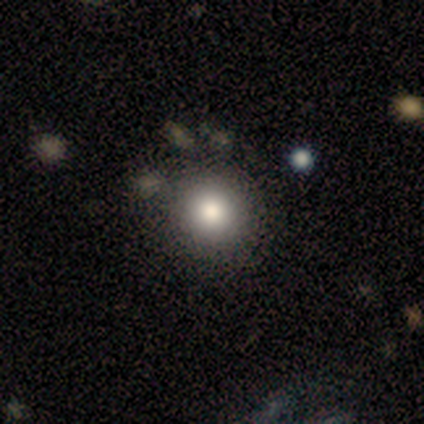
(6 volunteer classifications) smooth 50%, featured or disk 33%, star or artifact 17%. Down the decision tree: how rounded — round (100%); merging — none (80%).